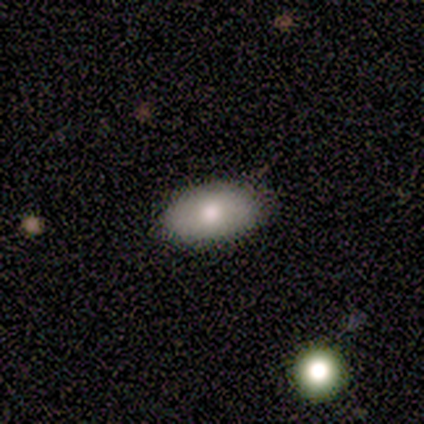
smooth 100%, featured or disk 0%, star or artifact 0%. Down the decision tree: how rounded — in between (80%); merging — none (60%).